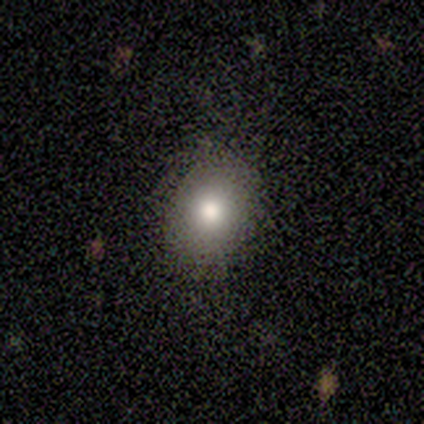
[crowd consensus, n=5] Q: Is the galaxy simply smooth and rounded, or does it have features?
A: smooth — 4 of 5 (80%).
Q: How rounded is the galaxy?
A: round — 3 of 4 (75%).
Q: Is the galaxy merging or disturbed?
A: minor disturbance — 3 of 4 (75%).